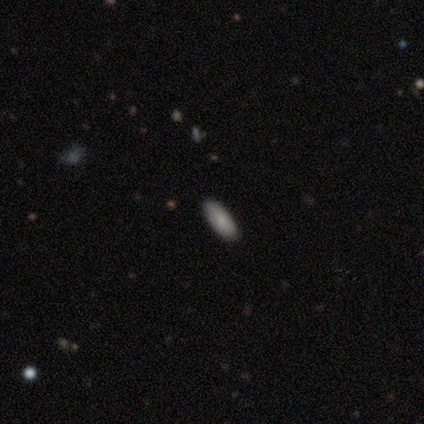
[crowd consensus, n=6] This is possibly a smooth galaxy (50%, tied with featured or disk). How rounded: clearly in between (100%). Merging: clearly none (83%).